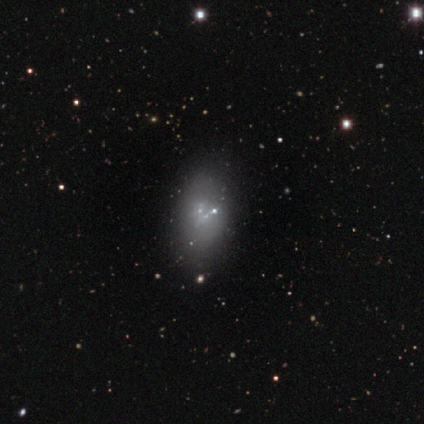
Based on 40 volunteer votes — Overall: featured or disk (52%; smooth 35%). Edge-on disk: no (100%). Bar: no (100%). Spiral arms: no (100%). Bulge size: none (57%; small 43%). Merging: none (66%).